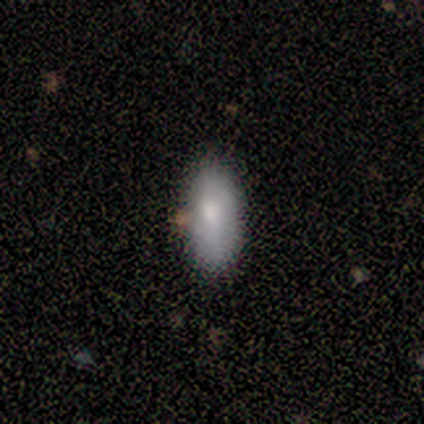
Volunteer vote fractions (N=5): Smooth or featured?
  - smooth: 80% *
  - featured or disk: 20%
  - star or artifact: 0%
How rounded?
  - in between: 100% *
  - round: 0%
  - cigar-shaped: 0%
Merging?
  - none: 100% *
  - minor disturbance: 0%
  - major disturbance: 0%
  - merger: 0%